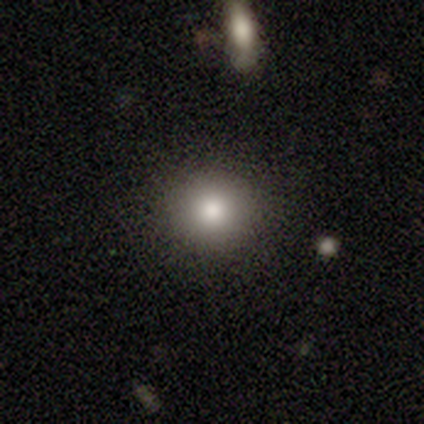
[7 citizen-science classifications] This appears to be a smooth galaxy with no disk features (71%) that is round (100%). Merging: none (100%).